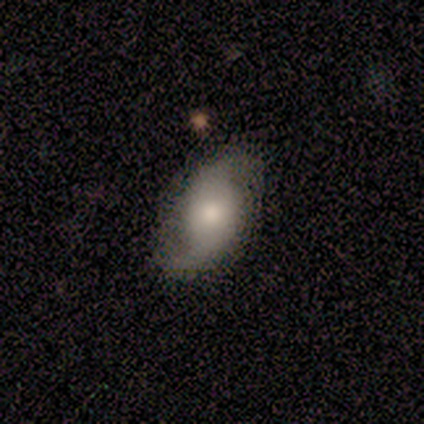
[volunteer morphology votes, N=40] Smooth or featured? featured or disk (68%)
Edge-on disk? no (100%)
Bar? no (74%)
Spiral arms? yes (93%)
Spiral winding? medium (44%)
Spiral arm count? 2 (96%)
Bulge size? moderate (59%)
Merging? none (74%)